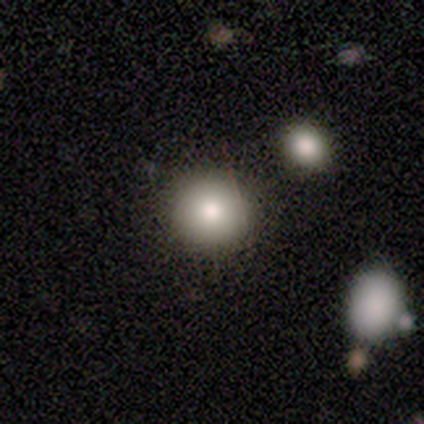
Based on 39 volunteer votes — Smooth or featured? smooth (74%)
How rounded? round (93%)
Merging? none (94%)